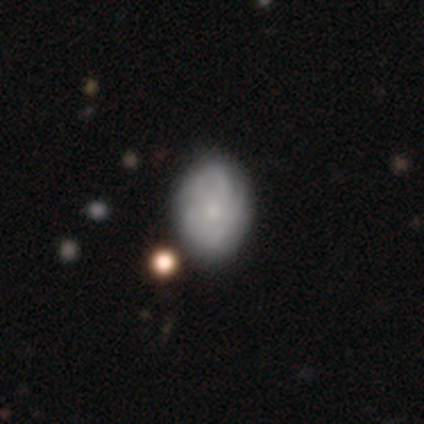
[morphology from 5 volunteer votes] smooth-or-featured: featured or disk: 60% | smooth: 20% | star or artifact: 20%
  disk-edge-on: no: 100% | yes: 0%
    bar: no: 100% | strong: 0% | weak: 0%
    has-spiral-arms: yes: 100% | no: 0%
      spiral-winding: tight: 100% | medium: 0% | loose: 0%
      spiral-arm-count: can't tell: 67% | 2: 33% | 1: 0% | 3: 0% | 4: 0% | more than 4: 0%
    bulge-size: dominant: 33% (tied) | moderate: 33% (tied) | small: 33% (tied) | large: 0% | none: 0%
  merging: none: 75% | minor disturbance: 25% | major disturbance: 0% | merger: 0%